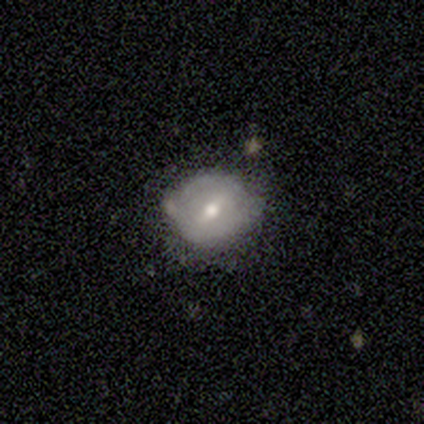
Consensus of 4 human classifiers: smooth_or_featured: smooth (p=0.50) [alt: featured or disk p=0.25]
how_rounded: round (p=1.00)
merging: none (p=0.67) [alt: minor disturbance p=0.33]